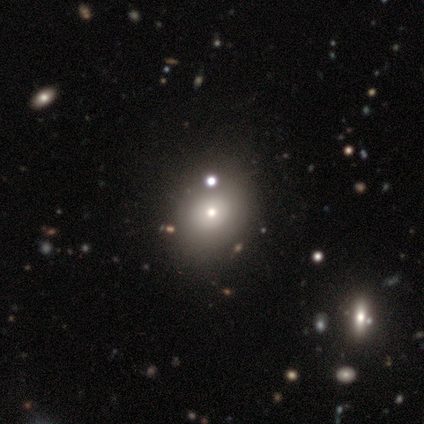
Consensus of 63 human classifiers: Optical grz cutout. It shows a smooth galaxy with no disk features (62%) that is round (56%). Merging: none (67%).